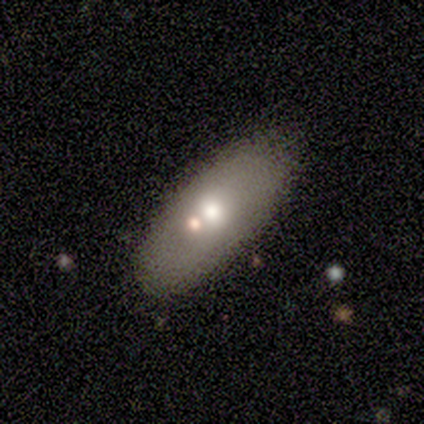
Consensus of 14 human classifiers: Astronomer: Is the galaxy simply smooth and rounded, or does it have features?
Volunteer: smooth — 79%.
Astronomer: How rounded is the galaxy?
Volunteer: in between — 73%.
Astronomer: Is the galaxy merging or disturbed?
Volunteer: none — 77%.